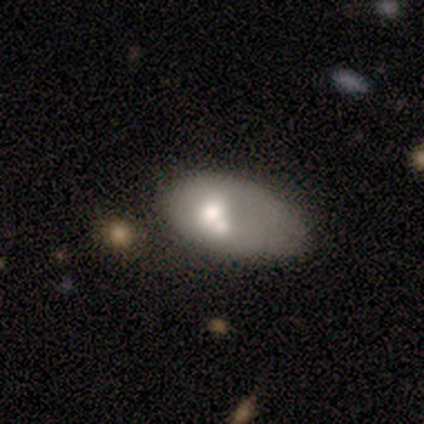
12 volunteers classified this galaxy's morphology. Overall: featured or disk (67%; smooth 33%). Edge-on disk: no (100%). Bar: no (88%). Spiral arms: no (100%). Bulge size: moderate (75%). Merging: minor disturbance (50%; major disturbance 25%).